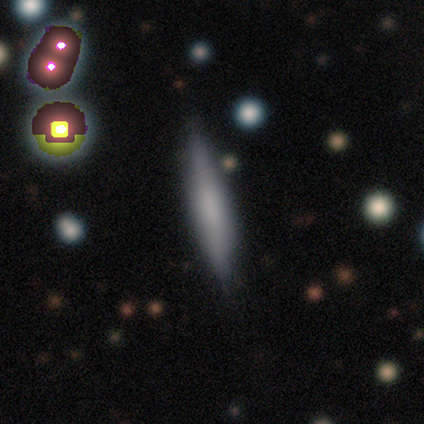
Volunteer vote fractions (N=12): This is possibly a featured or disk galaxy (50%). It is clearly viewed edge-on (100%). Edge-on bulge: possibly boxy (50%, tied with none). Merging: possibly none (50%).